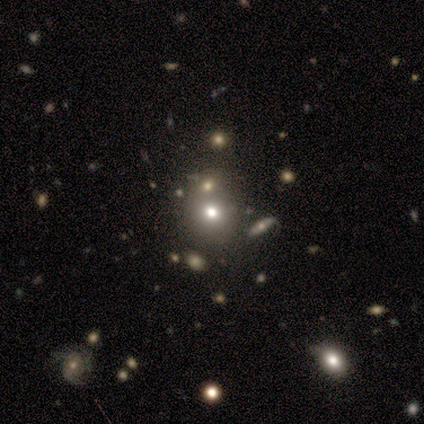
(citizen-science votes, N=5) Overall: smooth (80%). How rounded: round (75%). Merging: none (100%).